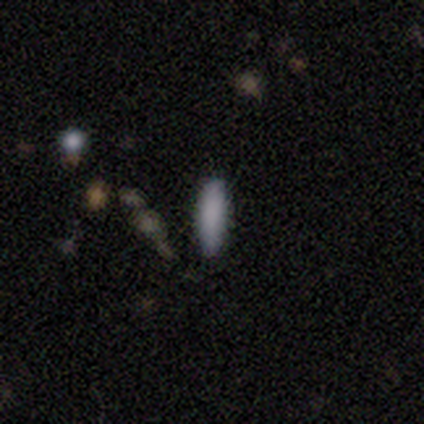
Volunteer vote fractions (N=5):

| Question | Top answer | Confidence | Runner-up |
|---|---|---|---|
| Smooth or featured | smooth | 80% | star or artifact (20%) |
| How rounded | in between | 50% | tied: cigar-shaped (50%) |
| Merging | none | 100% | — |